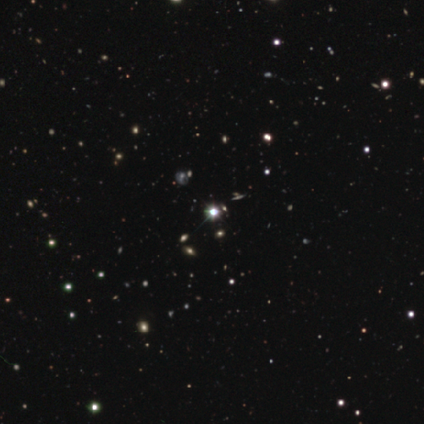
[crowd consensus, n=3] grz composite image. It shows a star or artifact, not a galaxy (100%).